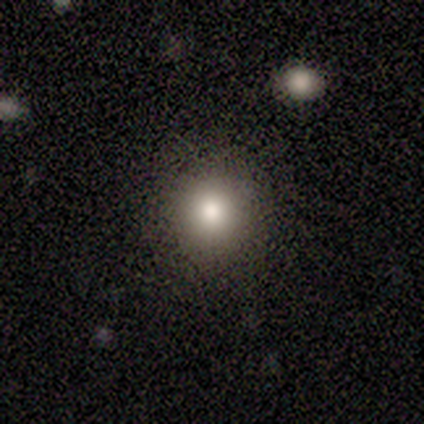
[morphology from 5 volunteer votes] Overall: smooth (100%). How rounded: round (80%). Merging: none (100%).